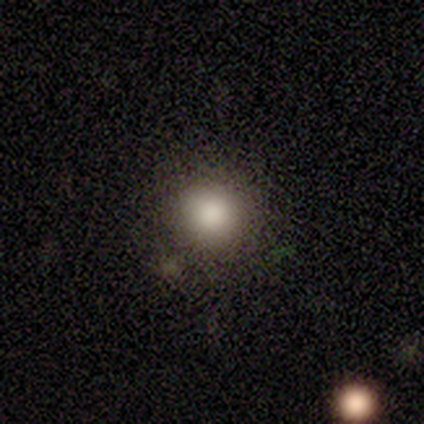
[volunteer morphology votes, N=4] This appears to be a smooth galaxy with no disk features (100%) that is round (100%). Merging: none (100%).